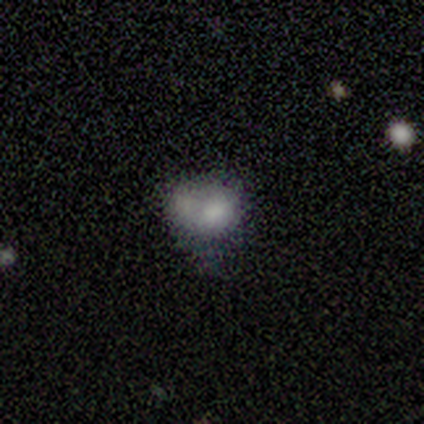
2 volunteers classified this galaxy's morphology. Overall: smooth (100%). How rounded: round (100%). Merging: none (50%, tied with merger).